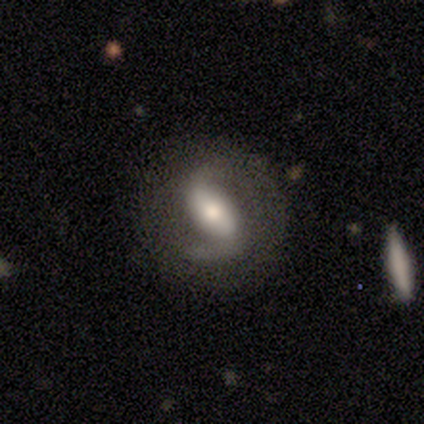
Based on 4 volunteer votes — smooth-or-featured: featured or disk: 100% | smooth: 0% | star or artifact: 0%
  disk-edge-on: no: 100% | yes: 0%
    bar: strong: 75% | weak: 25% | no: 0%
    has-spiral-arms: yes: 100% | no: 0%
      spiral-winding: tight: 50% | medium: 25% | loose: 25%
      spiral-arm-count: 2: 100% | 1: 0% | 3: 0% | 4: 0% | more than 4: 0% | can't tell: 0%
    bulge-size: moderate: 50% | large: 25% | small: 25% | dominant: 0% | none: 0%
  merging: none: 75% | merger: 25% | minor disturbance: 0% | major disturbance: 0%